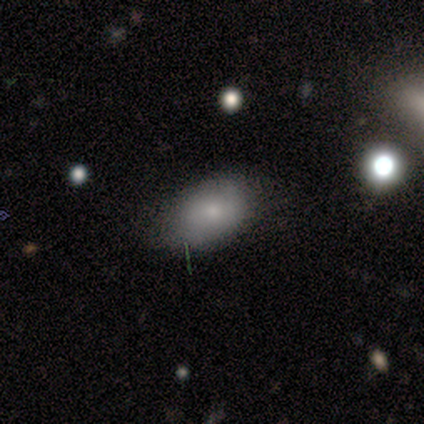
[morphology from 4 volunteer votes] Smooth or featured? smooth (50%)
How rounded? in between (100%)
Merging? none (100%)